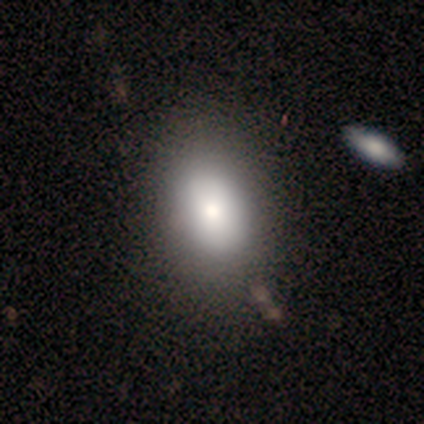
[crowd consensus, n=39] smooth-or-featured: smooth: 72% | featured or disk: 21% | star or artifact: 8%
  how-rounded: in between: 79% | round: 18% | cigar-shaped: 4%
  merging: none: 67% | minor disturbance: 8% | merger: 3% | major disturbance: 0%